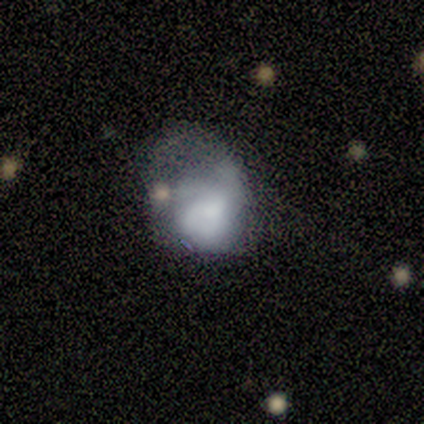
This appears to be a smooth galaxy with no disk features (40%, tied with featured or disk) that is in between round and cigar-shaped (100%). Merging: major disturbance (50%).